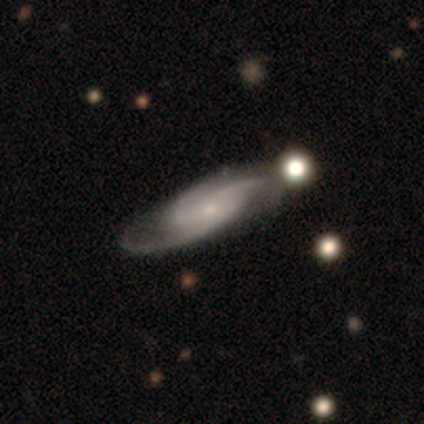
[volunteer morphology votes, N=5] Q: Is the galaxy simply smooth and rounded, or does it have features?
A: featured or disk — 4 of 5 (80%).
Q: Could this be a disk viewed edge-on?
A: no — 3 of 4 (75%).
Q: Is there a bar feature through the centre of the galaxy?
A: no — 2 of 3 (67%).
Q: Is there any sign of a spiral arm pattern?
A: yes — 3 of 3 (100%).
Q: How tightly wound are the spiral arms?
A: tight — 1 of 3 (33%, tied with medium and loose).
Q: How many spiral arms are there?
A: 2 — 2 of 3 (67%).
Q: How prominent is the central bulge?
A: small — 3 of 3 (100%).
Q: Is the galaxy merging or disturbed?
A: none — 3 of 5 (60%).